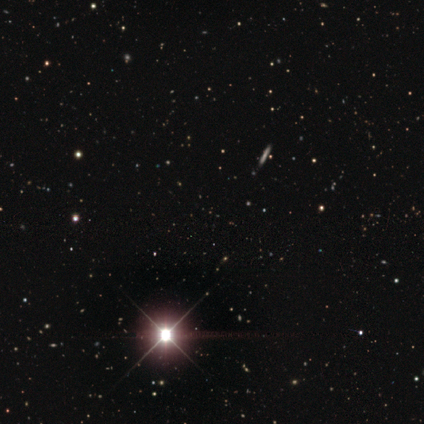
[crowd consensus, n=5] Q: Smooth or featured?
A: star or artifact (100%)